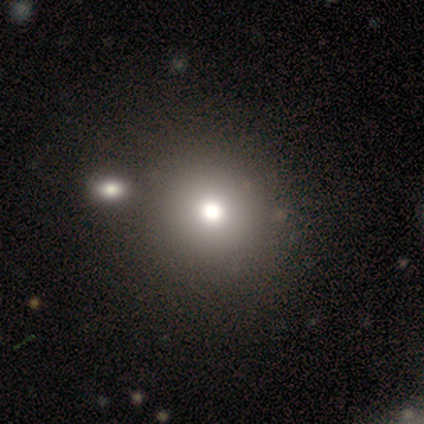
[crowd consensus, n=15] Overall: smooth (67%; star or artifact 27%). How rounded: round (100%). Merging: none (91%).